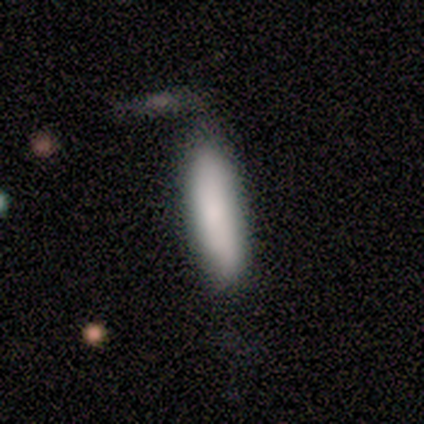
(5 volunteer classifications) Smooth or featured?
  - smooth: 80% *
  - star or artifact: 20%
  - featured or disk: 0%
How rounded?
  - cigar-shaped: 75% *
  - in between: 25%
  - round: 0%
Merging?
  - none: 100% *
  - minor disturbance: 0%
  - major disturbance: 0%
  - merger: 0%